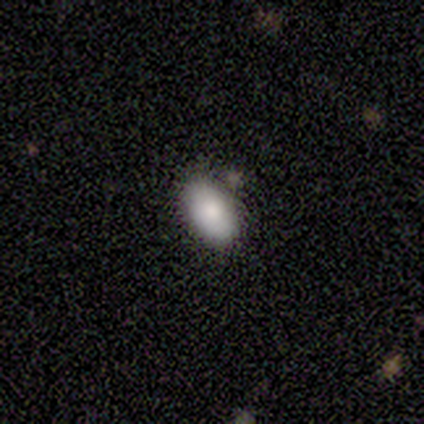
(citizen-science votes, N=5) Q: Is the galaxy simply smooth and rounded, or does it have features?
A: smooth — 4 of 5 (80%).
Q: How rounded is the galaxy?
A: in between — 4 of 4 (100%).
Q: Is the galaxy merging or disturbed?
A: none — 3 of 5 (60%).